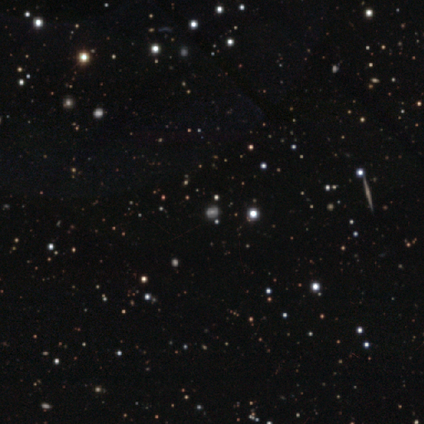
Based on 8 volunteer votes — Q: Smooth or featured?
A: smooth (50%); runner-up: featured or disk (38%)
Q: How rounded?
A: round (50%); tied with: in between (50%)
Q: Merging?
A: none (71%); runner-up: minor disturbance (29%)